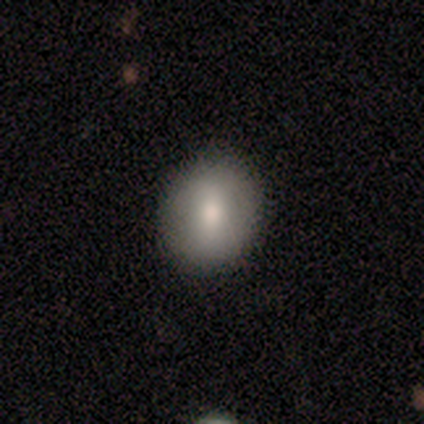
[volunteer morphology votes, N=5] This is clearly a smooth galaxy (80%). How rounded: clearly round (100%). Merging: clearly none (80%).